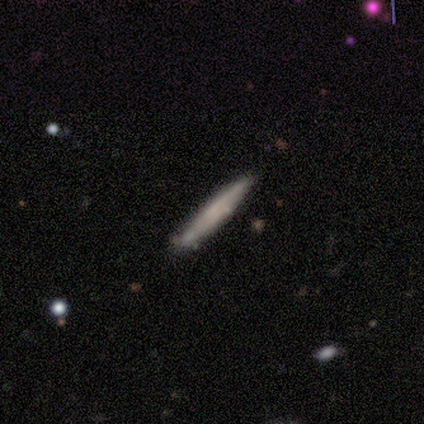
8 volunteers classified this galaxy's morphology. smooth_or_featured: smooth (p=0.50) [tied with: featured or disk p=0.50]
how_rounded: cigar-shaped (p=1.00)
merging: none (p=0.88) [alt: minor disturbance p=0.12]